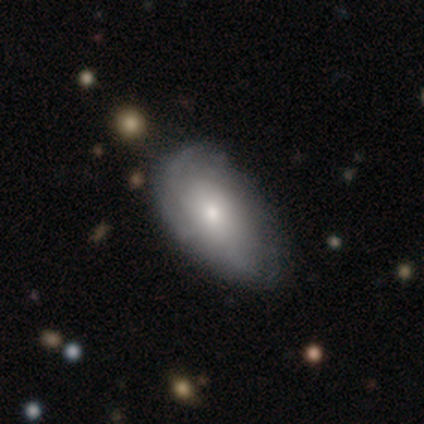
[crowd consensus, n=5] smooth-or-featured: smooth: 40% (tied) | featured or disk: 40% (tied) | star or artifact: 20%
  how-rounded: in between: 100% | round: 0% | cigar-shaped: 0%
  merging: minor disturbance: 100% | none: 0% | major disturbance: 0% | merger: 0%